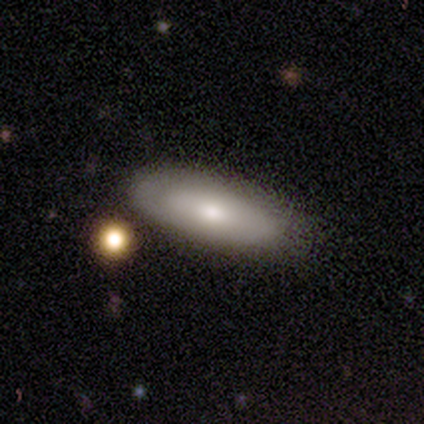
A smooth galaxy with no disk features (75%) that is cigar-shaped (67%).

Vote fractions:
- Smooth or featured? smooth: 75% / featured or disk: 25% / star or artifact: 0%
- How rounded? cigar-shaped: 67% / in between: 33% / round: 0%
- Merging? none: 50% (tied) / minor disturbance: 50% (tied) / major disturbance: 0% / merger: 0%